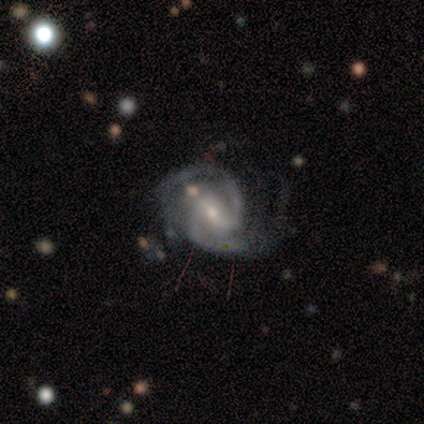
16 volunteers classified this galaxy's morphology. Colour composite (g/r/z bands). It shows a featured or disk galaxy (81%) with a weak bar (69%), 2 (77%) medium (85%) spiral arms (100%) and a small central bulge (54%). Merging: none (50%, tied with minor disturbance).